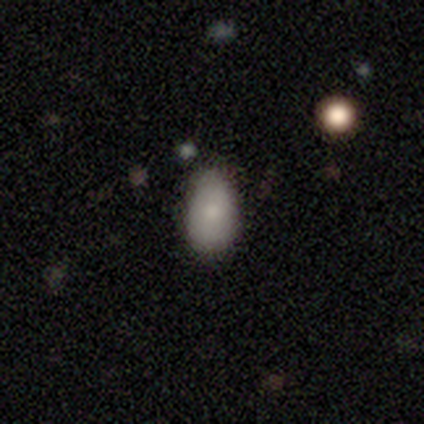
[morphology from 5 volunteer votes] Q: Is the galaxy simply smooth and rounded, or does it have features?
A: smooth — 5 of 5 (100%).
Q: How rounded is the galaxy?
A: in between — 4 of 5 (80%).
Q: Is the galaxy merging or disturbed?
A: none — 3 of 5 (60%).